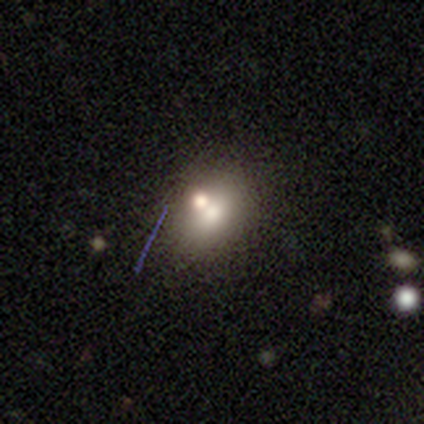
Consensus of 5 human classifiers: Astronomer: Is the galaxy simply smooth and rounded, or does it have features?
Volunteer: smooth — 100%.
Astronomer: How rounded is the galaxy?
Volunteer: round — 60% (runner-up: in between, 40%).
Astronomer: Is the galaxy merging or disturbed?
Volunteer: none — 40%, tied with merger at 40%.